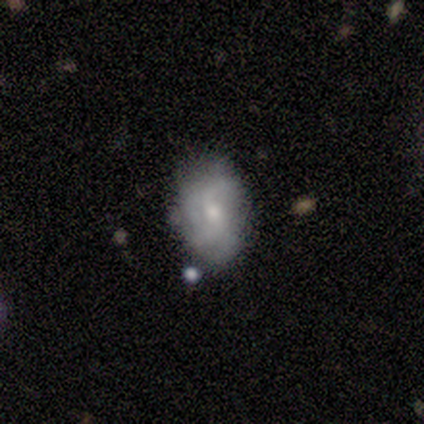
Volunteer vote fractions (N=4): A featured or disk galaxy (75%) with a weak bar (50%, tied with no), 2 (100%) loose (100%) spiral arms (50%, tied with no) and a moderate central bulge (50%, tied with small). Merging: none (100%).